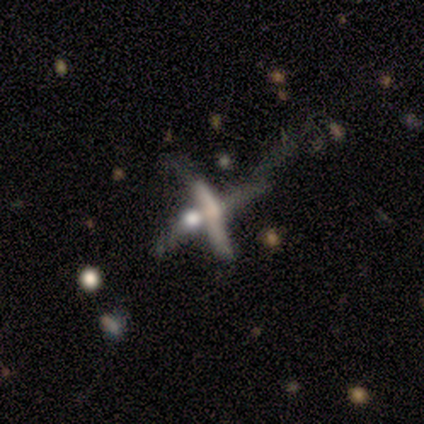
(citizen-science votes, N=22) smooth-or-featured: featured or disk: 64% | star or artifact: 23% | smooth: 14%
  disk-edge-on: no: 64% | yes: 36%
    bar: no: 78% | weak: 22% | strong: 0%
    has-spiral-arms: no: 78% | yes: 22%
    bulge-size: none: 56% | moderate: 33% | small: 11% | dominant: 0% | large: 0%
  merging: merger: 53% | major disturbance: 29% | minor disturbance: 18% | none: 0%